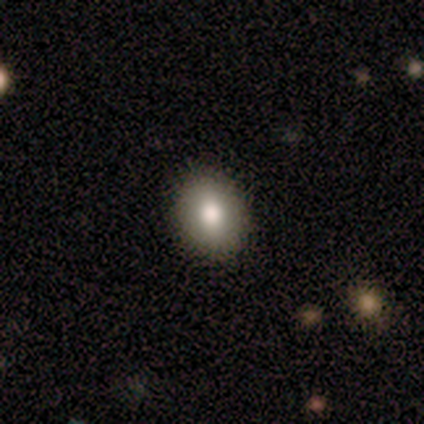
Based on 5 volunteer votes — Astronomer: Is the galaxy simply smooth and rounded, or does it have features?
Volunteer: smooth — 100%.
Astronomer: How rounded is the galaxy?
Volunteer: in between — 60% (runner-up: round, 40%).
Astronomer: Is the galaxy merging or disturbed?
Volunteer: none — 100%.